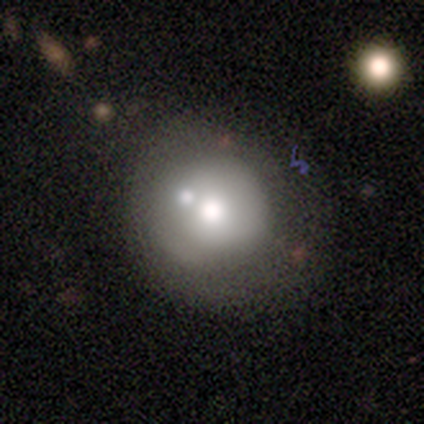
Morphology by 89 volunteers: smooth_or_featured: smooth (p=0.53) [alt: featured or disk p=0.31]
how_rounded: round (p=0.87) [alt: in between p=0.11]
merging: none (p=0.49) [alt: minor disturbance p=0.21]